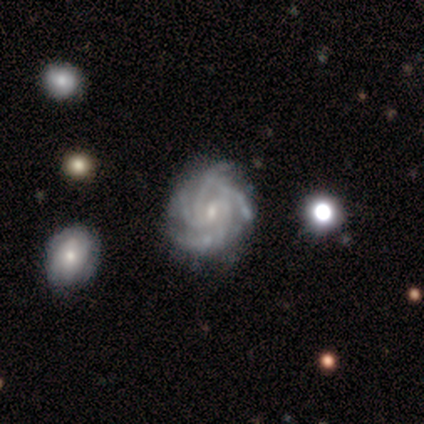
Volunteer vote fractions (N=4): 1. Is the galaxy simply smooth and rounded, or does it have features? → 100% featured or disk, 0% smooth, 0% star or artifact.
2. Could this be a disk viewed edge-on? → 100% no, 0% yes.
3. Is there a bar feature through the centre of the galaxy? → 100% weak, 0% strong, 0% no.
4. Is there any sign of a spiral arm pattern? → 100% yes, 0% no.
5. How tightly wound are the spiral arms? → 75% tight, 25% medium, 0% loose.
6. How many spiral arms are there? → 75% 4, 25% 3, 0% 1, 0% 2, 0% more than 4, 0% can't tell.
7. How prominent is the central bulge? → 75% small, 25% moderate, 0% dominant, 0% large, 0% none.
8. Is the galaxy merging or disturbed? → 75% none, 25% minor disturbance, 0% major disturbance, 0% merger.